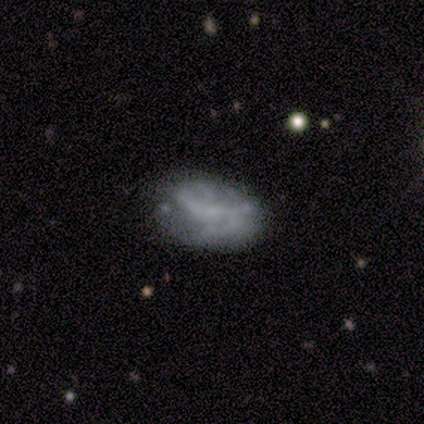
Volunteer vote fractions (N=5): Smooth or featured? featured or disk (80%)
Edge-on disk? no (100%)
Bar? no (75%)
Spiral arms? no (75%)
Bulge size? small (50%, tied with none)
Merging? none (60%)